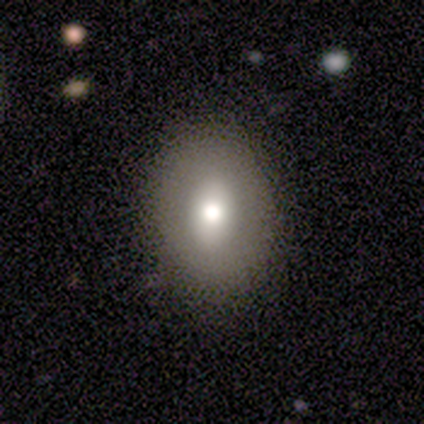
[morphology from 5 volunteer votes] smooth-or-featured: smooth: 80% | featured or disk: 20% | star or artifact: 0%
  how-rounded: in between: 100% | round: 0% | cigar-shaped: 0%
  merging: none: 100% | minor disturbance: 0% | major disturbance: 0% | merger: 0%